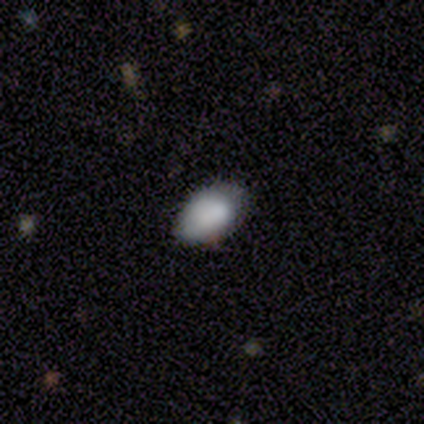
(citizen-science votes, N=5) A smooth galaxy with no disk features (100%) that is in between round and cigar-shaped (100%). Merging: none (60%).